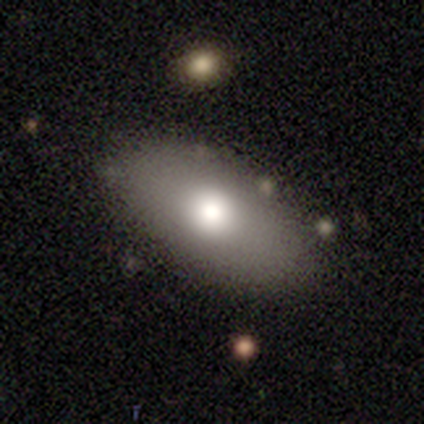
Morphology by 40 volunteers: Volunteers were most divided on "merging": none: 60%, minor disturbance: 5%, merger: 5%, major disturbance: 0%. More confident: how rounded — in between (100%); smooth or featured — smooth (80%).